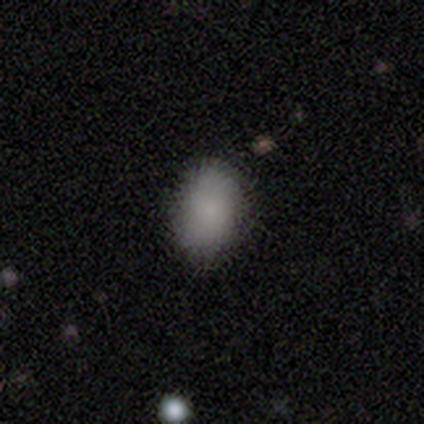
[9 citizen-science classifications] Smooth or featured?
  - smooth: 89% *
  - star or artifact: 11%
  - featured or disk: 0%
How rounded?
  - in between: 88% *
  - round: 12%
  - cigar-shaped: 0%
Merging?
  - none: 75% *
  - minor disturbance: 25%
  - major disturbance: 0%
  - merger: 0%